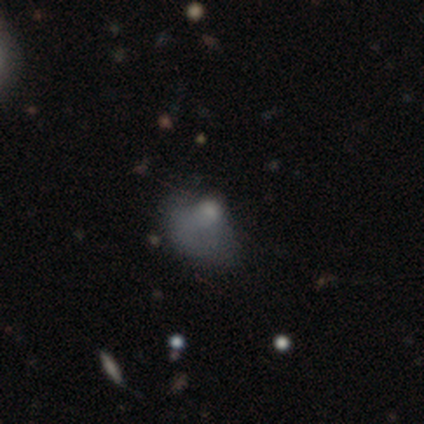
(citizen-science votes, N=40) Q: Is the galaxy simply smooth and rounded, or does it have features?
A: smooth — 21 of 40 (52%).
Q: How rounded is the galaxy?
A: in between — 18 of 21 (86%).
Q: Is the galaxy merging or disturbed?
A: major disturbance — 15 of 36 (42%).